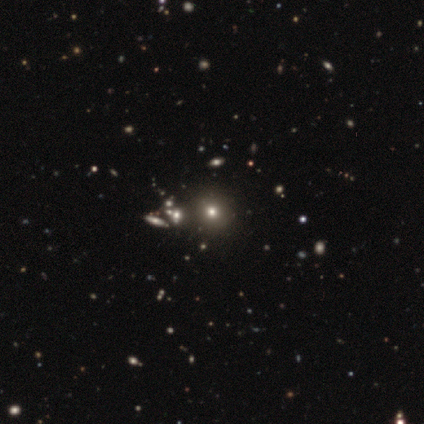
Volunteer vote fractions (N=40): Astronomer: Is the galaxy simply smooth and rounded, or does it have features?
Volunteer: smooth — 52%.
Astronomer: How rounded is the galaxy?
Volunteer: round — 90%.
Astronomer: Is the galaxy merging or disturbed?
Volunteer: none — 48%.